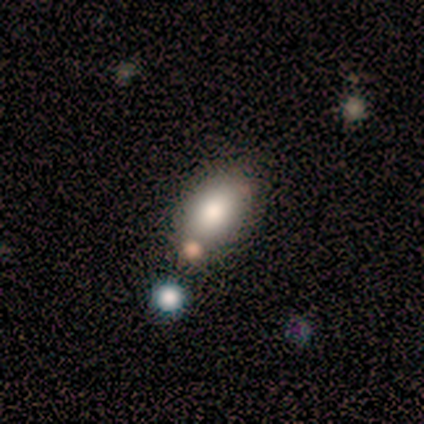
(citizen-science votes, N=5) Volunteers were most divided on "how rounded": in between: 67%, cigar-shaped: 33%, round: 0%. More confident: merging — none (75%); smooth or featured — smooth (60%).